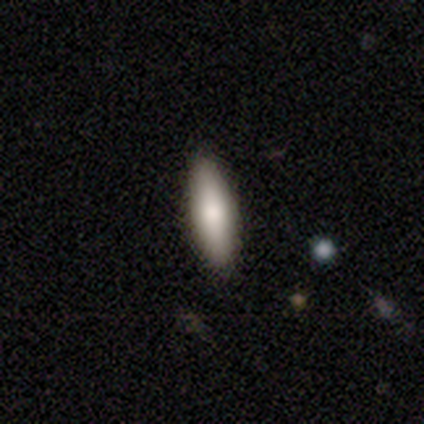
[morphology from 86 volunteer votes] This appears to be a smooth galaxy with no disk features (86%) that is cigar-shaped (55%). Merging: none (86%).